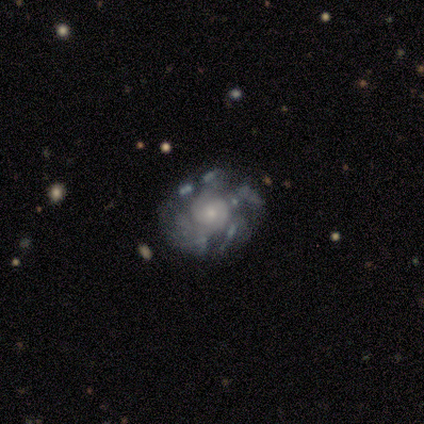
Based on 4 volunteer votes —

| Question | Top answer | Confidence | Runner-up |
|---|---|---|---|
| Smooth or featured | featured or disk | 75% | smooth (25%) |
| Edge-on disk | no | 100% | — |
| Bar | no | 67% | weak (33%) |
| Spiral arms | yes | 100% | — |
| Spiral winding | tight | 33% | tied: medium (33%), loose (33%) |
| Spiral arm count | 4 | 33% | tied: more than 4 (33%), can't tell (33%) |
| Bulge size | small | 100% | — |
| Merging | none | 75% | minor disturbance (25%) |